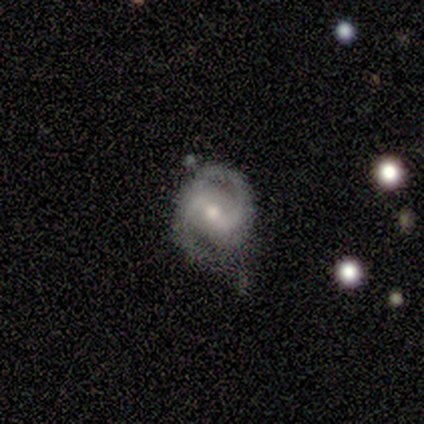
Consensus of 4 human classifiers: smooth_or_featured: featured or disk (p=0.50) [alt: smooth p=0.25]
disk_edge_on: no (p=1.00)
bar: weak (p=1.00)
has_spiral_arms: yes (p=1.00)
spiral_winding: medium (p=1.00)
spiral_arm_count: 2 (p=1.00)
bulge_size: moderate (p=1.00)
merging: none (p=0.67) [alt: major disturbance p=0.33]